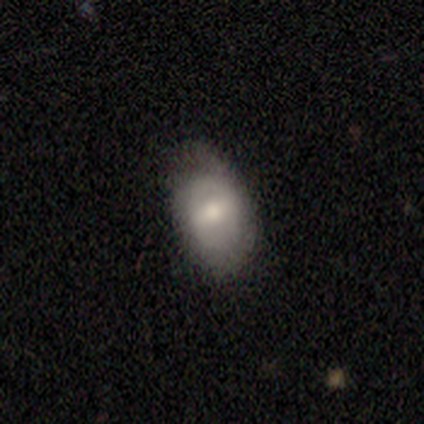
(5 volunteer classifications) A featured or disk galaxy (80%) with a strong bar (50%), 1 (50%, tied with can't tell) tight (50%, tied with loose) spiral arms (50%, tied with no) and a moderate central bulge (100%). Merging: none (80%).